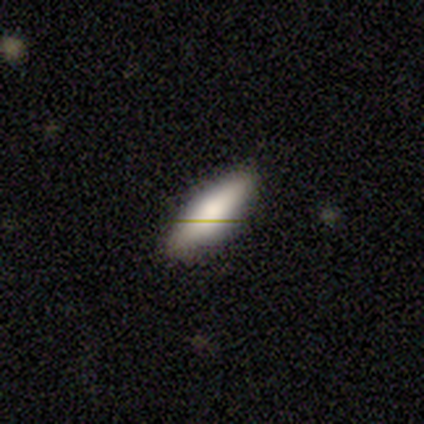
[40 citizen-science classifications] Smooth or featured: smooth — 85% (featured or disk — 10%)
How rounded: in between — 62% (cigar-shaped — 38%)
Merging: none — 95% (minor disturbance — 5%)